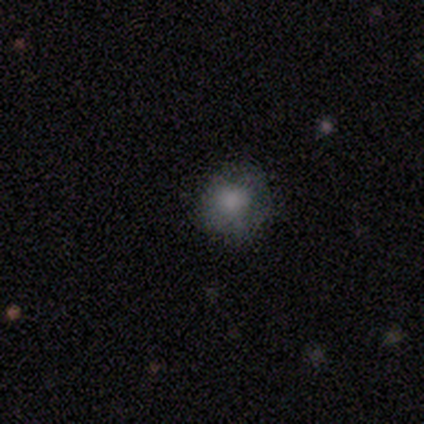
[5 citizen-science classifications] Overall: smooth (100%). How rounded: round (80%). Merging: none (80%).